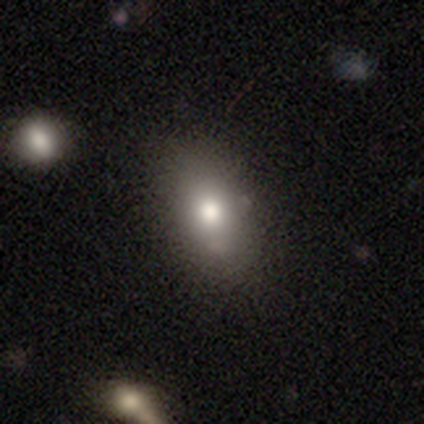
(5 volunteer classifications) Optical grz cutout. It shows a smooth galaxy with no disk features (100%) that is in between round and cigar-shaped (80%). Merging: none (100%).